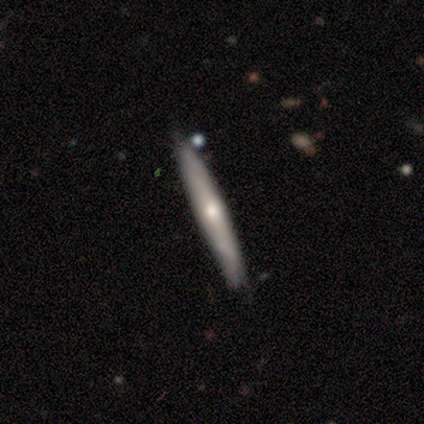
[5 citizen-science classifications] Smooth or featured? smooth (60%)
How rounded? cigar-shaped (100%)
Merging? none (80%)